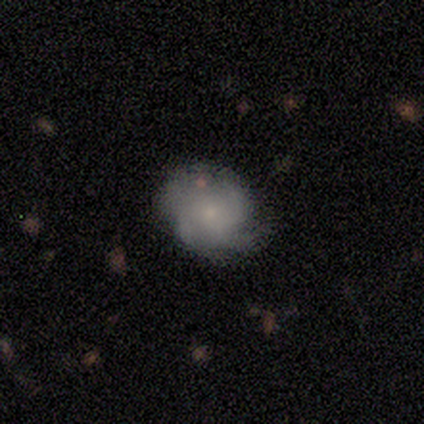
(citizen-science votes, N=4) Smooth or featured? featured or disk (75%)
Edge-on disk? no (100%)
Bar? no (100%)
Spiral arms? yes (100%)
Spiral winding? medium (67%)
Spiral arm count? 4 (100%)
Bulge size? small (100%)
Merging? none (50%, tied with minor disturbance)